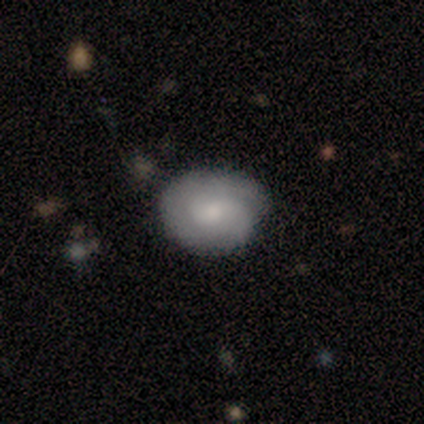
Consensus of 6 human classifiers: Volunteers were most divided on "how rounded" (2-way tie): round: 50%, in between: 50%, cigar-shaped: 0%. More confident: merging — minor disturbance (80%); smooth or featured — smooth (67%).